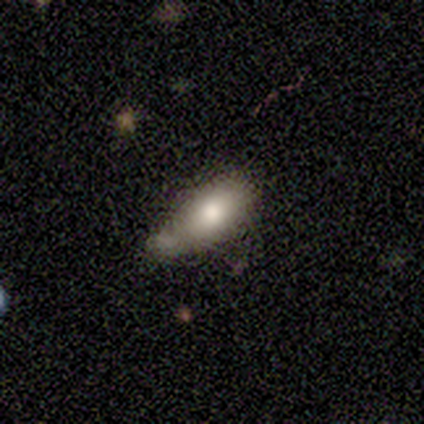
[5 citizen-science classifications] Volunteers were most divided on "merging": minor disturbance: 60%, none: 20%, merger: 20%, major disturbance: 0%. More confident: smooth or featured — smooth (100%); how rounded — in between (80%).